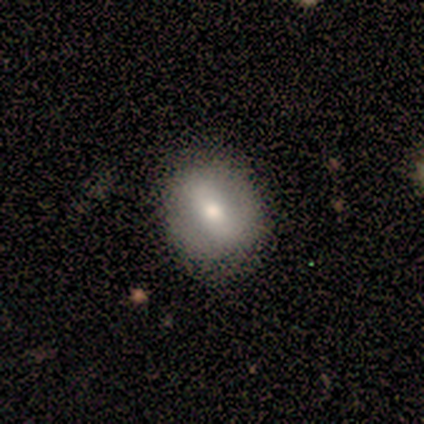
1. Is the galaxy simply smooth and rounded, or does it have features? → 60% smooth, 40% featured or disk, 0% star or artifact.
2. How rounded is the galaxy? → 100% round, 0% in between, 0% cigar-shaped.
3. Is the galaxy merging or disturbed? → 100% none, 0% minor disturbance, 0% major disturbance, 0% merger.